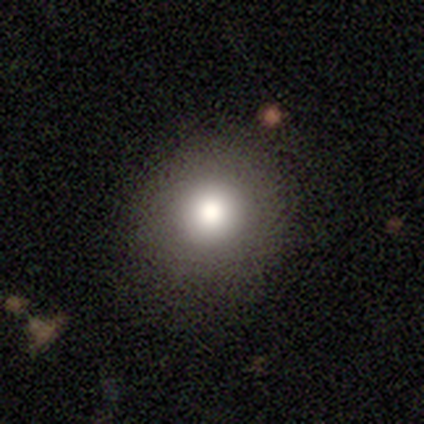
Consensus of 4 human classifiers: A smooth galaxy with no disk features (75%) that is round (100%). Merging: none (100%).